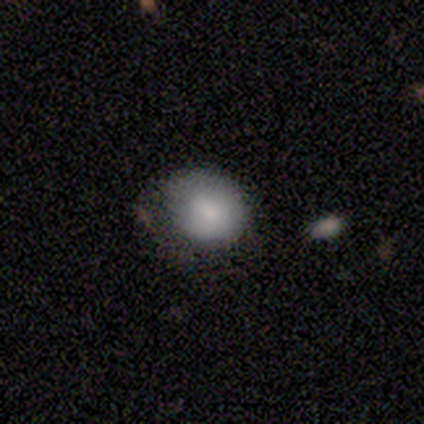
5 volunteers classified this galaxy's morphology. A smooth galaxy with no disk features (80%) that is in between round and cigar-shaped (100%).

Vote fractions:
- Smooth or featured? smooth: 80% / star or artifact: 20% / featured or disk: 0%
- How rounded? in between: 100% / round: 0% / cigar-shaped: 0%
- Merging? none: 50% / minor disturbance: 25% / major disturbance: 25% / merger: 0%